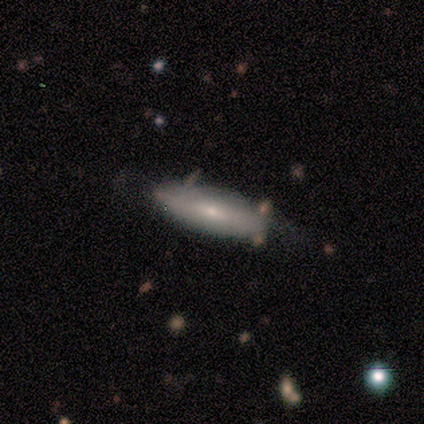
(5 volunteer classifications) smooth_or_featured: smooth (p=0.80) [alt: featured or disk p=0.20]
how_rounded: in between (p=0.75) [alt: cigar-shaped p=0.25]
merging: none (p=0.80) [alt: minor disturbance p=0.20]